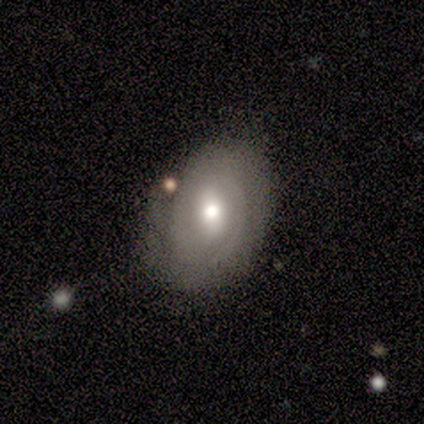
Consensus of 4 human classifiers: This appears to be a smooth galaxy with no disk features (50%, tied with featured or disk) that is in between round and cigar-shaped (100%). Merging: none (75%).